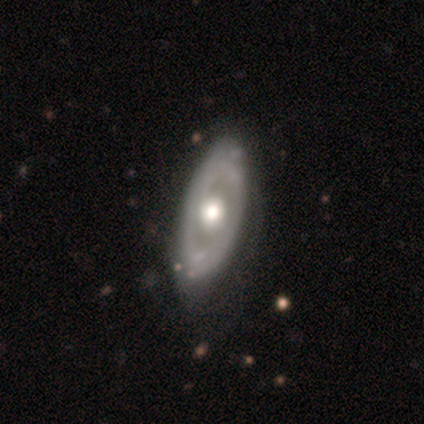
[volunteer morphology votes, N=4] Smooth or featured?
  - featured or disk: 100% *
  - smooth: 0%
  - star or artifact: 0%
Edge-on disk?
  - no: 100% *
  - yes: 0%
Bar?
  - no: 100% *
  - strong: 0%
  - weak: 0%
Spiral arms?
  - yes: 50% * (tied)
  - no: 50% * (tied)
Spiral winding?
  - tight: 100% *
  - medium: 0%
  - loose: 0%
Spiral arm count?
  - can't tell: 100% *
  - 1: 0%
  - 2: 0%
  - 3: 0%
  - 4: 0%
  - more than 4: 0%
Bulge size?
  - moderate: 75% *
  - large: 25%
  - dominant: 0%
  - small: 0%
  - none: 0%
Merging?
  - none: 75% *
  - minor disturbance: 25%
  - major disturbance: 0%
  - merger: 0%